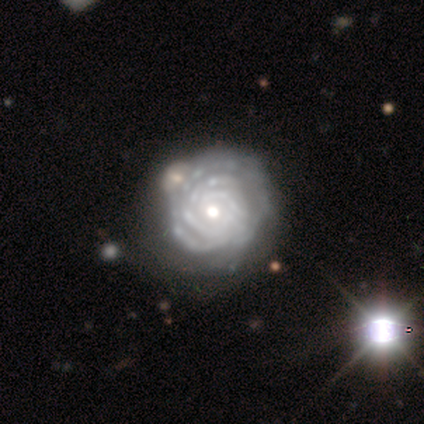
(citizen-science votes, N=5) Smooth or featured? 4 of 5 (80%) said featured or disk. Edge-on disk? 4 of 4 (100%) said no. Bar? 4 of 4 (100%) said no. Spiral arms? 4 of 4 (100%) said yes. Spiral winding? 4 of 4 (100%) said tight. Spiral arm count? 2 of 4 (50%) said 4. Bulge size? 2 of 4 (50%, tied with small) said moderate. Merging? 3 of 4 (75%) said none.